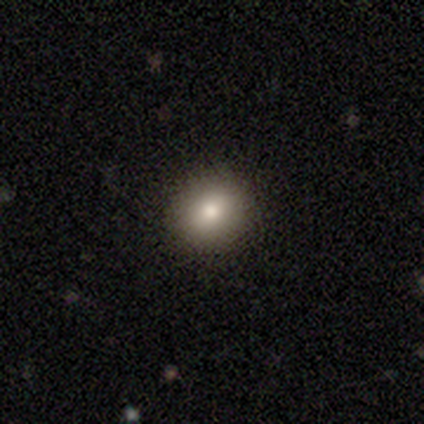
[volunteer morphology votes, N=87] Overall: smooth (74%). How rounded: round (77%). Merging: none (92%).